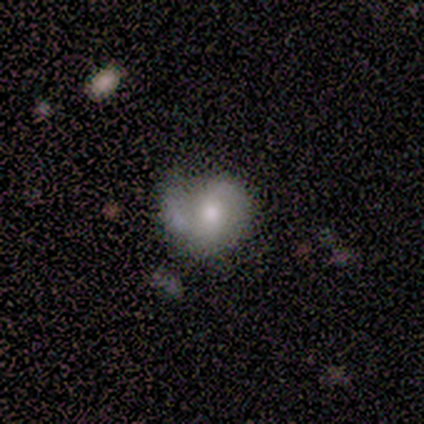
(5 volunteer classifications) A featured or disk galaxy (60%) with a strong bar (67%), 2 (67%) tight (33%, tied with medium and loose) spiral arms (100%) and a moderate central bulge (100%).

Vote fractions:
- Smooth or featured? featured or disk: 60% / smooth: 40% / star or artifact: 0%
- Edge-on disk? no: 100% / yes: 0%
- Bar? strong: 67% / no: 33% / weak: 0%
- Spiral arms? yes: 100% / no: 0%
- Spiral winding? tight: 33% (tied) / medium: 33% (tied) / loose: 33% (tied)
- Spiral arm count? 2: 67% / 1: 33% / 3: 0% / 4: 0% / more than 4: 0% / can't tell: 0%
- Bulge size? moderate: 100% / dominant: 0% / large: 0% / small: 0% / none: 0%
- Merging? none: 80% / merger: 20% / minor disturbance: 0% / major disturbance: 0%